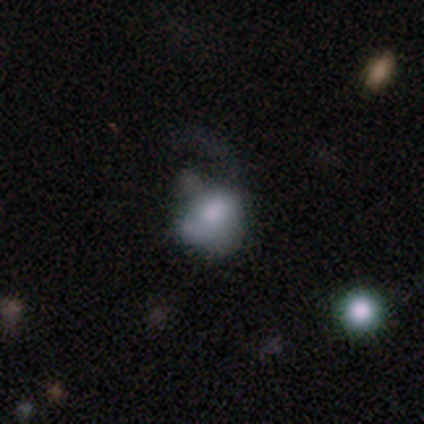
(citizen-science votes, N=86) Smooth or featured? smooth (58%)
How rounded? in between (62%)
Merging? major disturbance (52%)